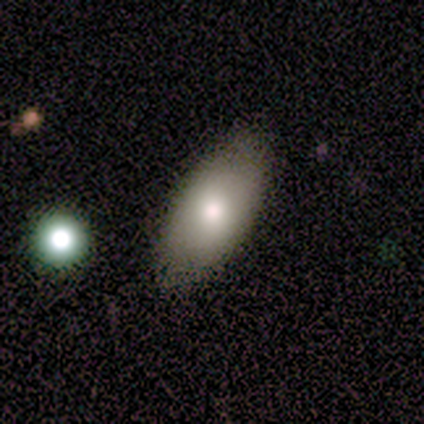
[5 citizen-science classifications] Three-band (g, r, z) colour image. It shows a smooth galaxy with no disk features (80%) that is in between round and cigar-shaped (100%). Merging: none (100%).